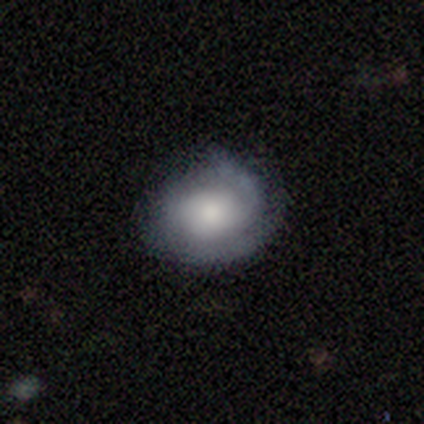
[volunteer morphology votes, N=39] A featured or disk galaxy (59%) with no bar (83%), 2 (71%) tight (43%, tied with medium) spiral arms (91%) and a moderate central bulge (48%).

Vote fractions:
- Smooth or featured? featured or disk: 59% / smooth: 38% / star or artifact: 3%
- Edge-on disk? no: 100% / yes: 0%
- Bar? no: 83% / weak: 13% / strong: 4%
- Spiral arms? yes: 91% / no: 9%
- Spiral winding? tight: 43% (tied) / medium: 43% (tied) / loose: 14%
- Spiral arm count? 2: 71% / can't tell: 24% / 1: 5% / 3: 0% / 4: 0% / more than 4: 0%
- Bulge size? moderate: 48% / large: 35% / small: 13% / none: 4% / dominant: 0%
- Merging? none: 66% / minor disturbance: 24% / major disturbance: 11% / merger: 0%